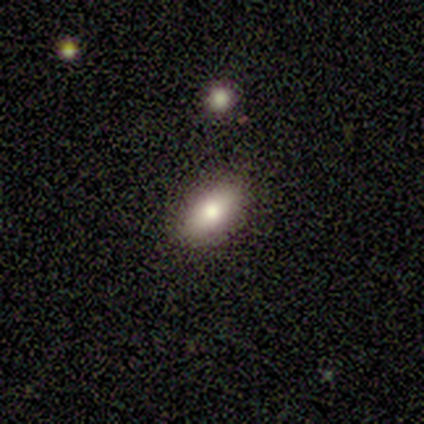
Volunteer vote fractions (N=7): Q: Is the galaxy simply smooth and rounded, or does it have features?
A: smooth — 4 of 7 (57%).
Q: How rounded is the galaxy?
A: in between — 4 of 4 (100%).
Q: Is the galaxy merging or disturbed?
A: none — 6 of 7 (86%).